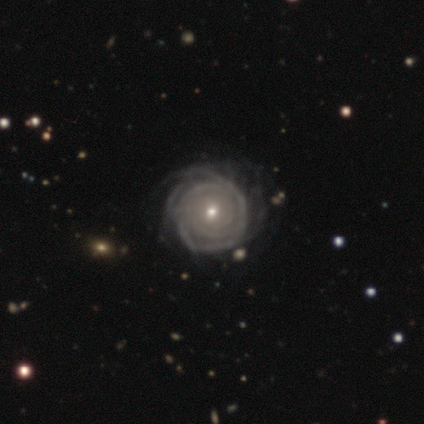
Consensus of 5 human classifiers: featured or disk 100%, smooth 0%, star or artifact 0%. Down the decision tree: edge-on disk — no (100%); bar — no (80%); spiral arms — yes (80%); spiral arm count — 3 (50%); spiral winding — tight (100%); bulge size — small (100%); merging — none (60%).